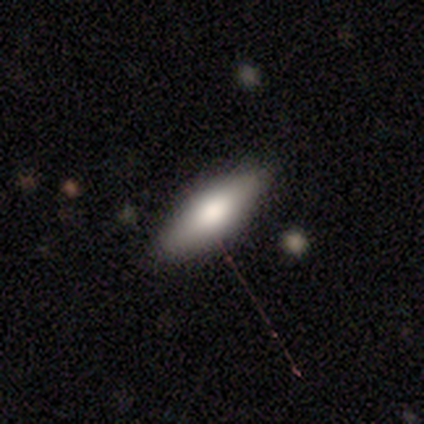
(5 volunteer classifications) Smooth or featured? 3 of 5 (60%) said smooth. How rounded? 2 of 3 (67%) said in between. Merging? 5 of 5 (100%) said none.